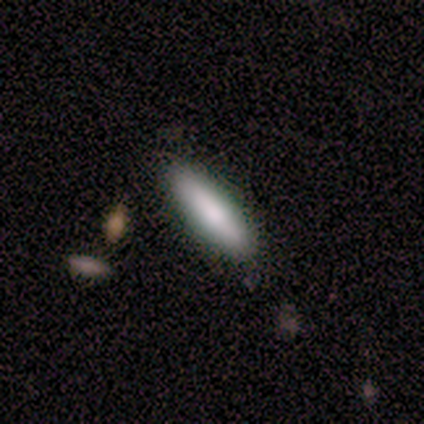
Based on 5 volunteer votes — Smooth or featured? smooth (80%)
How rounded? in between (50%, tied with cigar-shaped)
Merging? none (80%)